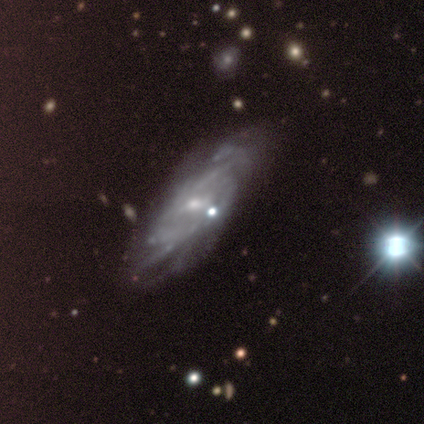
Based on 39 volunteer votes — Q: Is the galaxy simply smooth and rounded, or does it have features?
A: featured or disk — 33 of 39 (85%).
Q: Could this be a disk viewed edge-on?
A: no — 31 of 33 (94%).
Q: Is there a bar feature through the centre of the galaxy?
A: weak — 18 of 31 (58%).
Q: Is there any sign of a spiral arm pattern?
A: yes — 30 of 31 (97%).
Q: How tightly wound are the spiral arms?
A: tight — 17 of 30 (57%).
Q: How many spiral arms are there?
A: can't tell — 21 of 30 (70%).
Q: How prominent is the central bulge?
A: small — 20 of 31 (65%).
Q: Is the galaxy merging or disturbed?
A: none — 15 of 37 (41%).